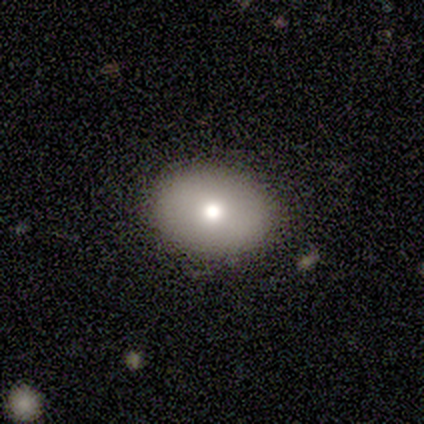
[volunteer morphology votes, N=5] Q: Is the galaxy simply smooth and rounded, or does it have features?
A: smooth — 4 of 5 (80%).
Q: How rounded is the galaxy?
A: in between — 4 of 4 (100%).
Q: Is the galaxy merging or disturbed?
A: none — 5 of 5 (100%).